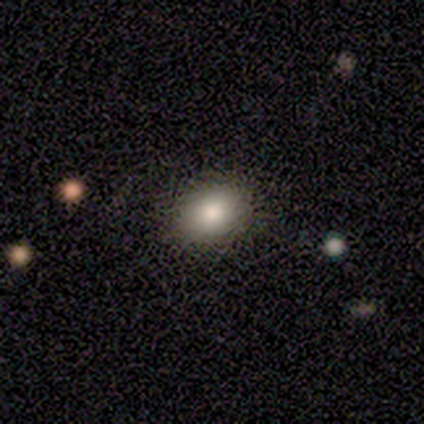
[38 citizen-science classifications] smooth-or-featured: smooth: 79% | star or artifact: 13% | featured or disk: 8%
  how-rounded: in between: 57% | round: 43% | cigar-shaped: 0%
  merging: none: 94% | minor disturbance: 6% | major disturbance: 0% | merger: 0%